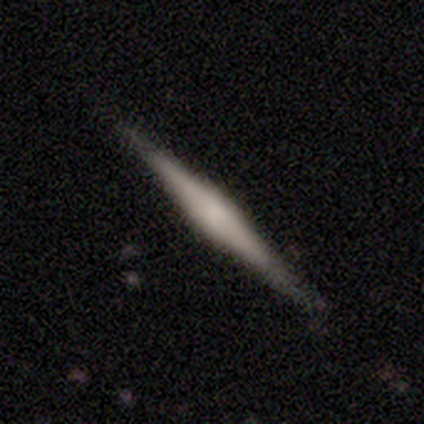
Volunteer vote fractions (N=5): Morphology: type=featured or disk (80%); edge-on=yes (100%); edge-on bulge=rounded (50%); merging=none (100%).